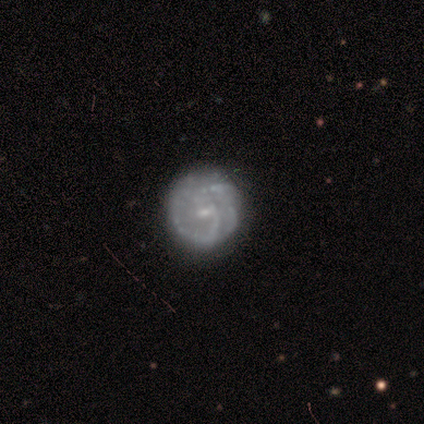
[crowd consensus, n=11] Morphology: type=featured or disk (91%); edge-on=no (100%); bar=no (60%); spiral arms=yes (90%); winding=tight (78%); arm count=2 (56%); bulge=small (80%); merging=none (91%).